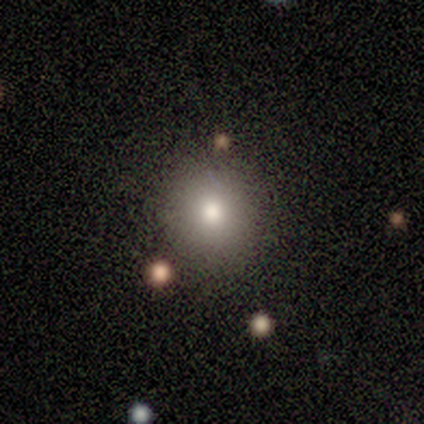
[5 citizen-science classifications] Volunteers were most divided on "smooth or featured": smooth: 60%, star or artifact: 40%, featured or disk: 0%. More confident: how rounded — round (100%); merging — none (100%).